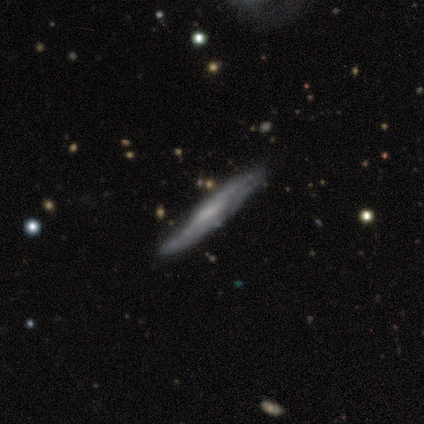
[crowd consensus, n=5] featured or disk 60%, smooth 40%, star or artifact 0%. Down the decision tree: edge-on disk — no (67%); bar — no (100%); spiral arms — no (100%); bulge size — small (50%, tied with none); merging — minor disturbance (60%).